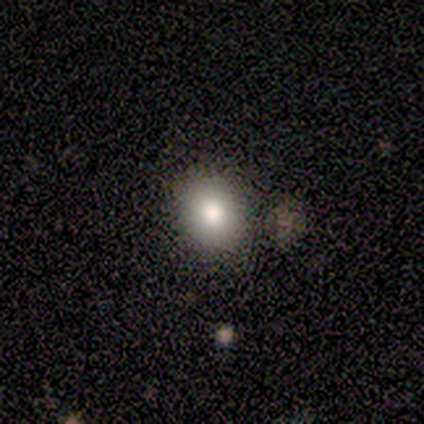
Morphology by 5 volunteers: type=smooth (80%); roundness=round (50%, tied with in between); merging=none (50%, tied with minor disturbance).